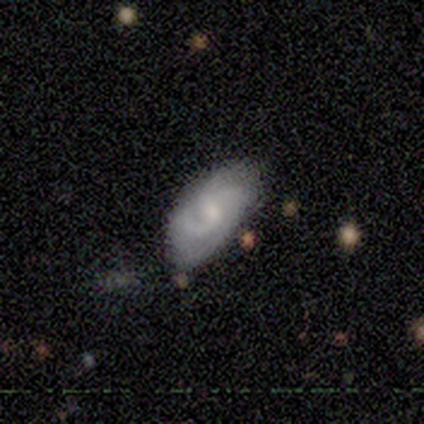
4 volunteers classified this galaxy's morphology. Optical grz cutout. It shows a smooth galaxy with no disk features (50%) that is in between round and cigar-shaped (100%). Merging: none (100%).